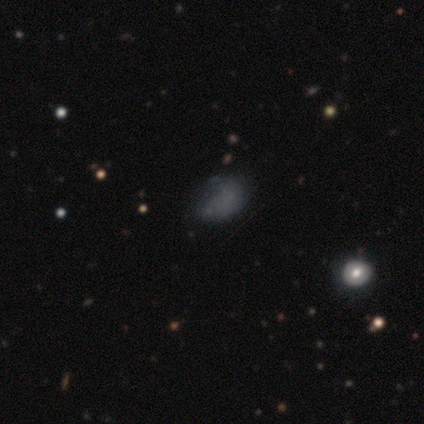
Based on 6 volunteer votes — Volunteers were most divided on "smooth or featured": smooth: 50%, star or artifact: 33%, featured or disk: 17%. More confident: how rounded — round (67%); merging — none (50%).